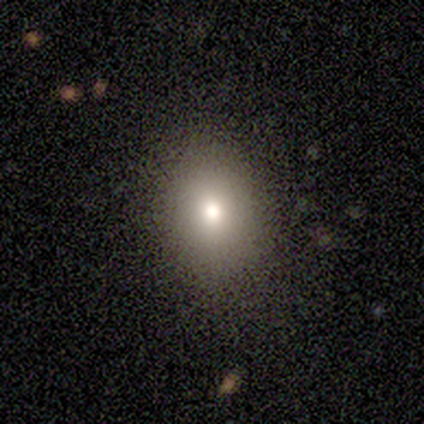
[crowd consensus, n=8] Morphology: type=smooth (62%); roundness=in between (60%); merging=none (60%).